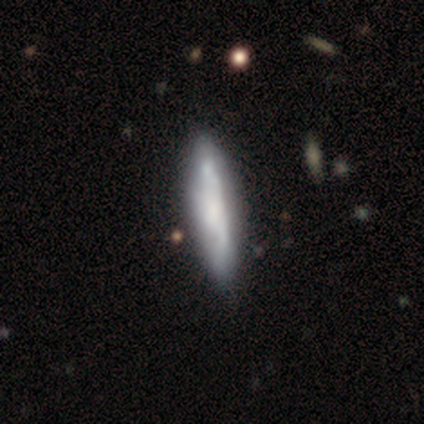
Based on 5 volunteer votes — smooth_or_featured: smooth (p=0.80) [alt: featured or disk p=0.20]
how_rounded: cigar-shaped (p=1.00)
merging: none (p=0.80) [alt: minor disturbance p=0.20]